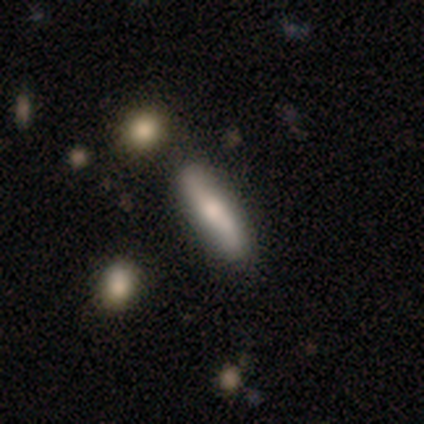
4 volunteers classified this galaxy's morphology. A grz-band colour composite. It shows a smooth galaxy with no disk features (50%, tied with featured or disk) that is cigar-shaped (100%). Merging: none (100%).